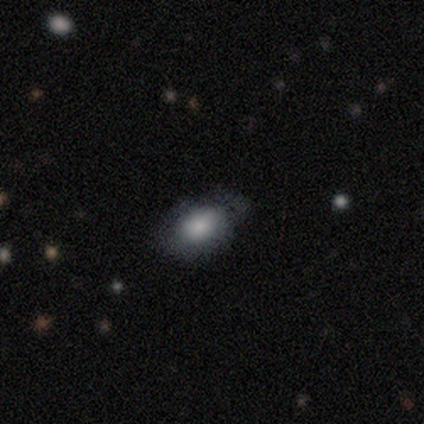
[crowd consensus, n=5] Smooth or featured? smooth (80%)
How rounded? in between (75%)
Merging? none (80%)